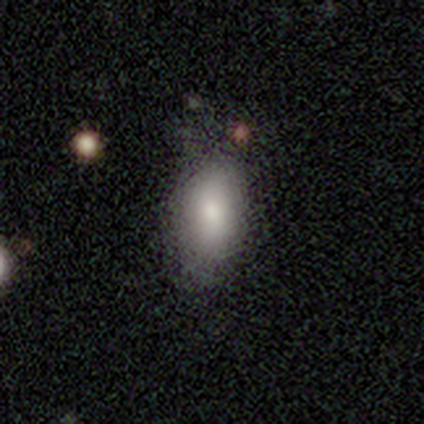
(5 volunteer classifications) smooth 80%, featured or disk 20%, star or artifact 0%. Down the decision tree: how rounded — in between (100%); merging — none (60%).